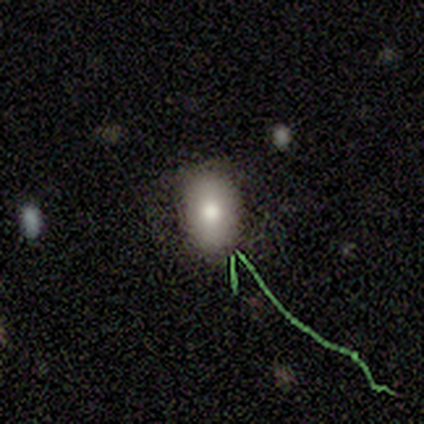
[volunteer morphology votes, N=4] This is clearly a smooth galaxy (100%). How rounded: clearly in between (100%). Merging: likely none (75%).